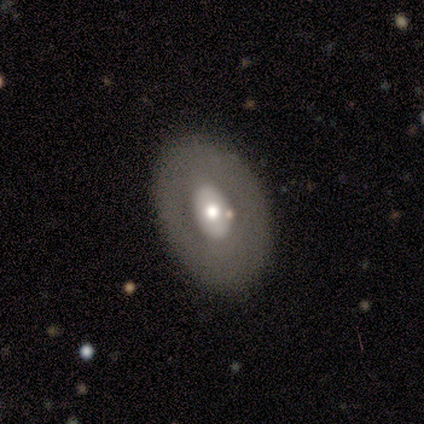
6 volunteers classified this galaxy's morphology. smooth-or-featured: featured or disk: 67% | smooth: 33% | star or artifact: 0%
  disk-edge-on: no: 100% | yes: 0%
    bar: no: 100% | strong: 0% | weak: 0%
    has-spiral-arms: no: 100% | yes: 0%
    bulge-size: moderate: 50% | large: 25% | small: 25% | dominant: 0% | none: 0%
  merging: none: 67% | minor disturbance: 17% | major disturbance: 17% | merger: 0%